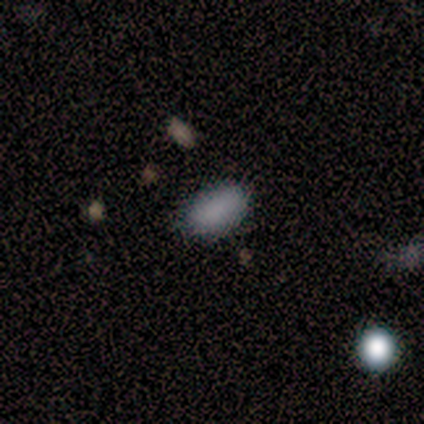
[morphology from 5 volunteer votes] Volunteers were most divided on "merging" (2-way tie): none: 50%, minor disturbance: 50%, major disturbance: 0%, merger: 0%. More confident: how rounded — in between (100%); smooth or featured — smooth (80%).